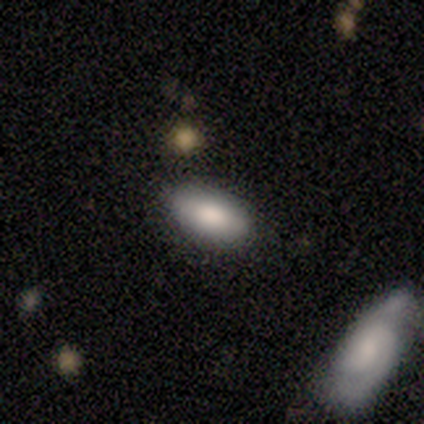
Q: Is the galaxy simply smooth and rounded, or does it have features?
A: smooth — 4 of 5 (80%).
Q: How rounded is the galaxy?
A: in between — 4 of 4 (100%).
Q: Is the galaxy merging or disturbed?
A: none — 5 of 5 (100%).